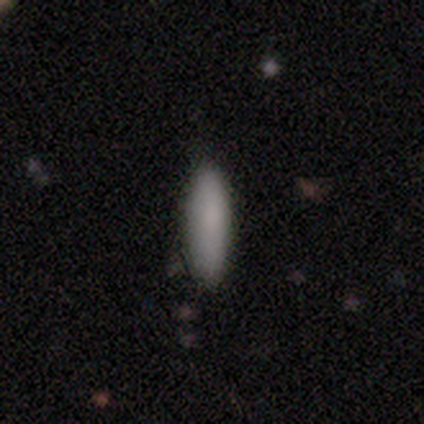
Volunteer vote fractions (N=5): Morphology: type=smooth (80%); roundness=in between (50%, tied with cigar-shaped); merging=none (80%).